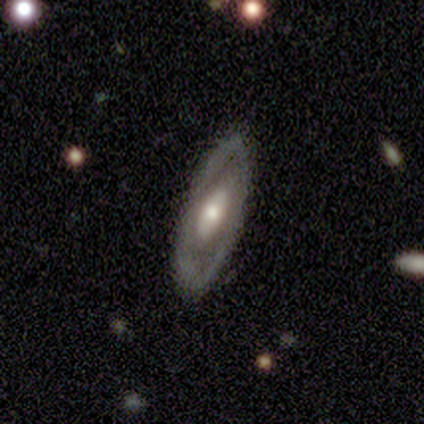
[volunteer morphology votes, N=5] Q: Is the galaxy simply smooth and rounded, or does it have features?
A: featured or disk — 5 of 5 (100%).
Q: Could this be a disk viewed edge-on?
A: no — 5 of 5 (100%).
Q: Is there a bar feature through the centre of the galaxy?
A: no — 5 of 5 (100%).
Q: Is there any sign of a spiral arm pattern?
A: no — 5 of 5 (100%).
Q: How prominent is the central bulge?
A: moderate — 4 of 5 (80%).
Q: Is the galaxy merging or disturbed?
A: none — 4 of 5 (80%).